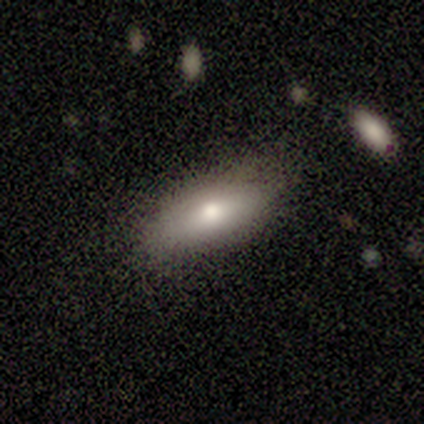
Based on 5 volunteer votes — smooth_or_featured: smooth (p=0.60) [alt: featured or disk p=0.40]
how_rounded: in between (p=0.67) [alt: cigar-shaped p=0.33]
merging: none (p=1.00)